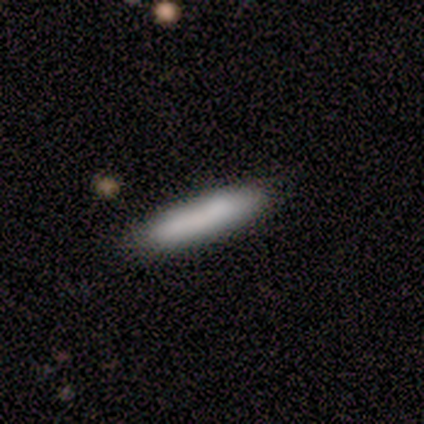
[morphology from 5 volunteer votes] smooth_or_featured: smooth (p=0.80) [alt: featured or disk p=0.20]
how_rounded: cigar-shaped (p=1.00)
merging: none (p=1.00)